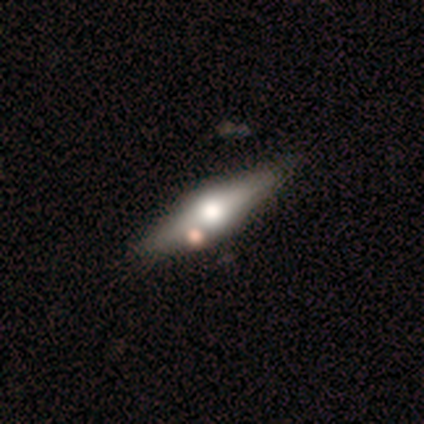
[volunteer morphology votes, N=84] This is likely a featured or disk galaxy (68%). It is clearly viewed edge-on (98%). Edge-on bulge: clearly rounded (98%). Merging: likely none (72%).